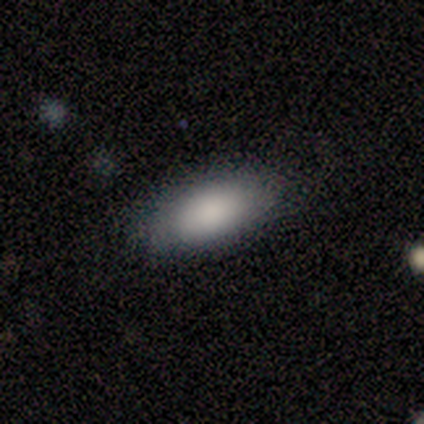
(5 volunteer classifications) smooth_or_featured: smooth (p=1.00)
how_rounded: in between (p=0.80) [alt: cigar-shaped p=0.20]
merging: none (p=0.80) [alt: minor disturbance p=0.20]